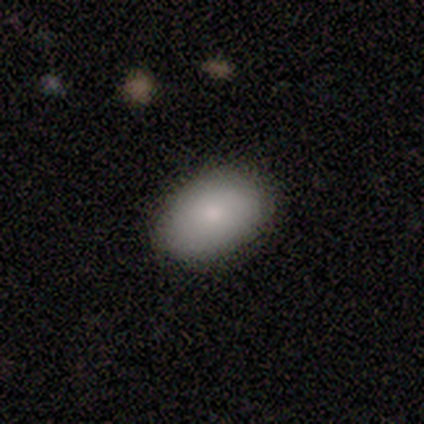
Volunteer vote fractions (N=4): Smooth or featured? star or artifact (50%)